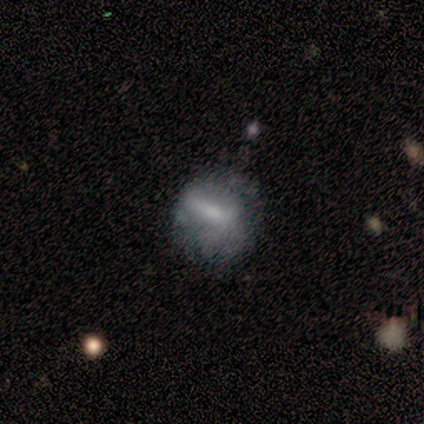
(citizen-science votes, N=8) Overall: smooth (38%, tied with featured or disk). How rounded: round (67%; in between 33%). Merging: none (33%, tied with major disturbance).